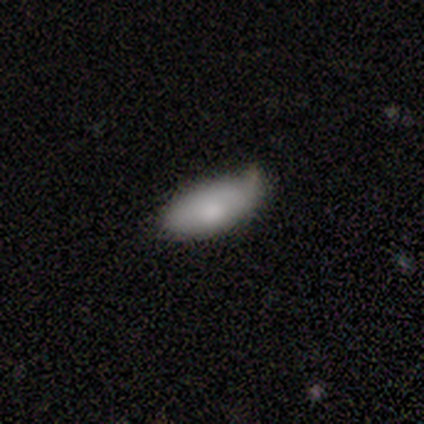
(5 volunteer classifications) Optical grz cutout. It shows a smooth galaxy with no disk features (80%) that is in between round and cigar-shaped (75%). Merging: none (60%).